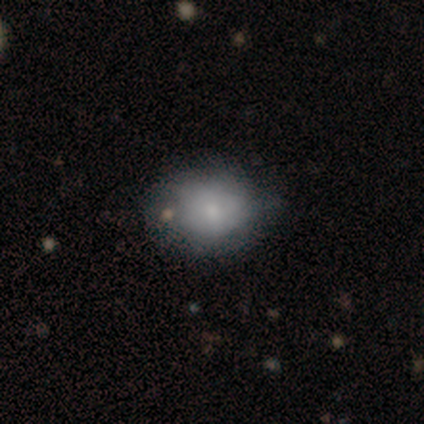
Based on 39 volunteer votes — A smooth galaxy with no disk features (69%) that is in between round and cigar-shaped (52%). Merging: minor disturbance (33%).